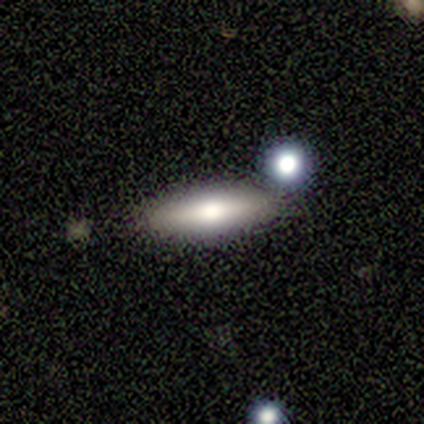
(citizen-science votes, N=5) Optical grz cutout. It shows a smooth galaxy with no disk features (100%) that is cigar-shaped (80%). Merging: none (60%).